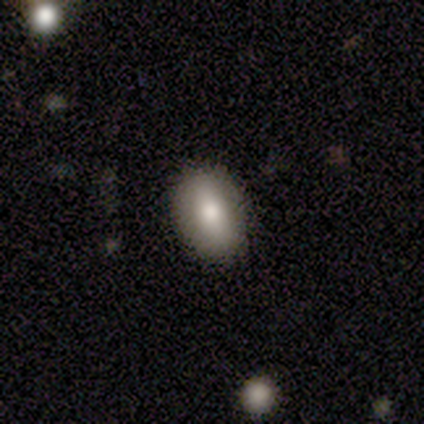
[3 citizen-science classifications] Smooth or featured: smooth — 67% (featured or disk — 33%)
How rounded: in between — 50% (tied with cigar-shaped — 50%)
Merging: none — 100%